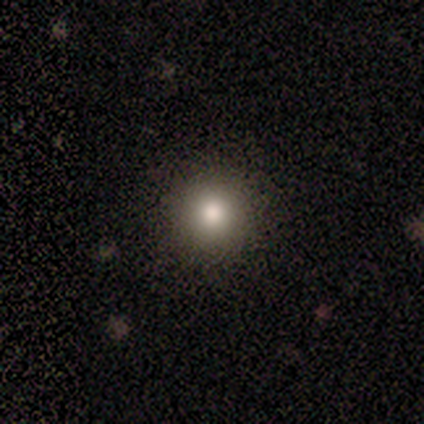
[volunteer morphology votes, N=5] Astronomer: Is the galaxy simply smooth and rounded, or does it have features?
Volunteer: smooth — 100%.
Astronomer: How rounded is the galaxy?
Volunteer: round — 100%.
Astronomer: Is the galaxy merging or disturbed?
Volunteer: none — 80%.